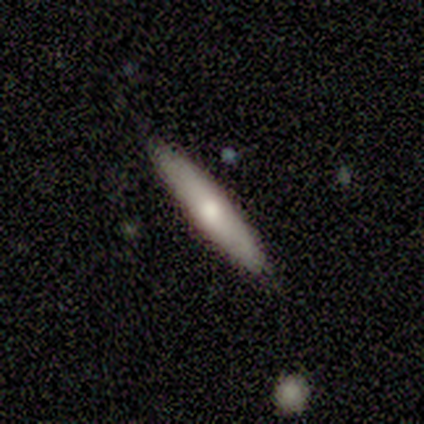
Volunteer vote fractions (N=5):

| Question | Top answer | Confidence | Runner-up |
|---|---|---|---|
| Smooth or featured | smooth | 60% | featured or disk (40%) |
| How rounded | cigar-shaped | 67% | in between (33%) |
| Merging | none | 100% | — |